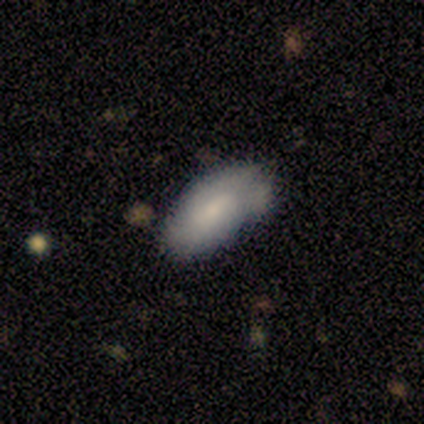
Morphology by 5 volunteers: This is clearly a smooth galaxy (80%). How rounded: clearly in between (100%). Merging: marginally none (40%, tied with merger).